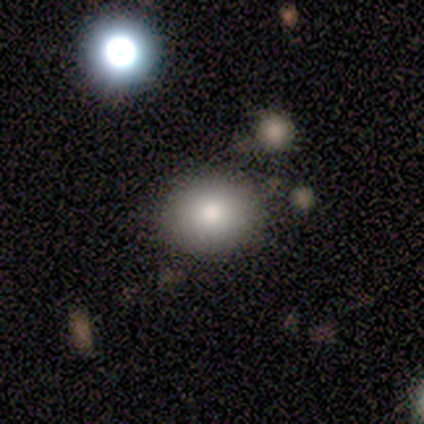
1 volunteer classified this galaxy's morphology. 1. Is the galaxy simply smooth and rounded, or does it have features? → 100% smooth, 0% featured or disk, 0% star or artifact.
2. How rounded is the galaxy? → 100% round, 0% in between, 0% cigar-shaped.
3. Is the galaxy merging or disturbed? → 100% none, 0% minor disturbance, 0% major disturbance, 0% merger.